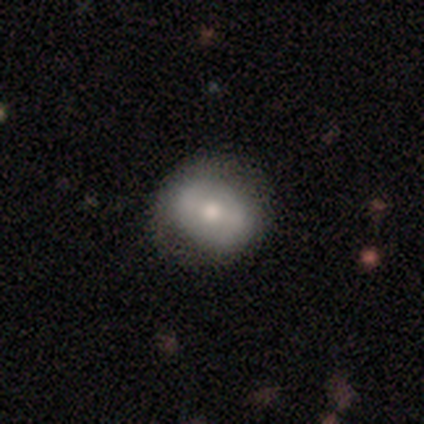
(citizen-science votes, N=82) smooth 54%, featured or disk 41%, star or artifact 5%. Down the decision tree: how rounded — round (64%); merging — none (74%).